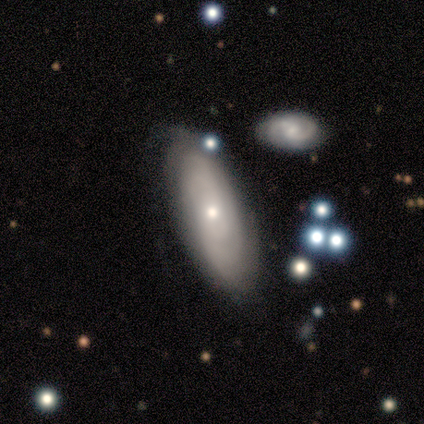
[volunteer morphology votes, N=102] Smooth or featured: featured or disk — 62% (smooth — 33%)
Edge-on disk: no — 84% (yes — 16%)
Bar: no — 87% (weak — 11%)
Spiral arms: yes — 66% (no — 34%)
Spiral winding: tight — 71% (medium — 20%)
Spiral arm count: can't tell — 66% (2 — 20%)
Bulge size: small — 51% (moderate — 43%)
Merging: none — 67% (minor disturbance — 14%)